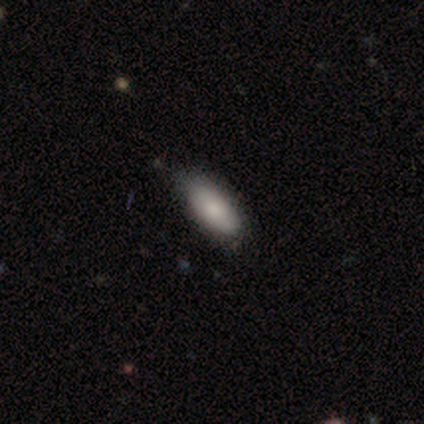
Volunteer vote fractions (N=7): Smooth or featured?
  - smooth: 100% *
  - featured or disk: 0%
  - star or artifact: 0%
How rounded?
  - in between: 100% *
  - round: 0%
  - cigar-shaped: 0%
Merging?
  - none: 86% *
  - minor disturbance: 14%
  - major disturbance: 0%
  - merger: 0%